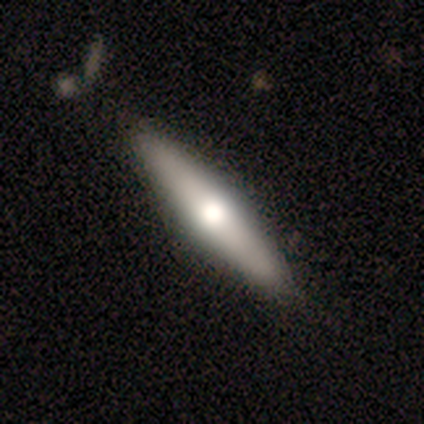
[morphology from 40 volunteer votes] smooth 62%, featured or disk 38%, star or artifact 0%. Down the decision tree: how rounded — cigar-shaped (76%); merging — none (65%).